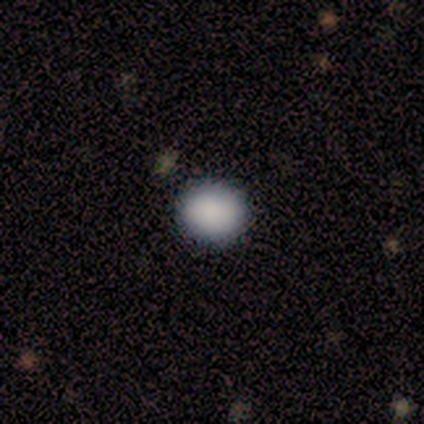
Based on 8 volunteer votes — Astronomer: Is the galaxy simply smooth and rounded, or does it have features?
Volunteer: smooth — 88%.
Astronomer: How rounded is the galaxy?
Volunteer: round — 57% (runner-up: in between, 43%).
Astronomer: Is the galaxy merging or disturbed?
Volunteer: none — 88%.